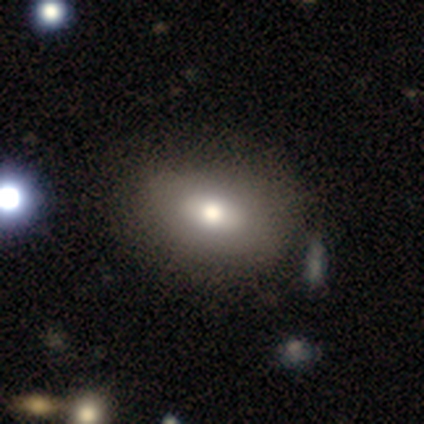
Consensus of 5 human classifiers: smooth 60%, featured or disk 20%, star or artifact 20%. Down the decision tree: how rounded — round (67%); merging — none (75%).